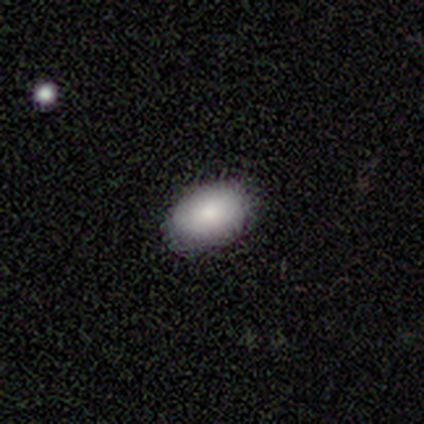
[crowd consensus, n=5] Q: Smooth or featured?
A: smooth (80%); runner-up: featured or disk (20%)
Q: How rounded?
A: in between (100%)
Q: Merging?
A: none (100%)